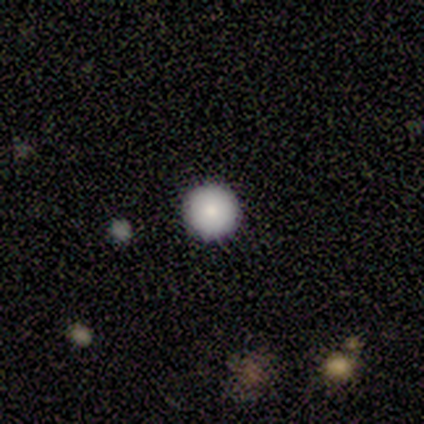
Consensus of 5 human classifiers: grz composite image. It shows a smooth galaxy with no disk features (80%) that is round (100%). Merging: none (100%).